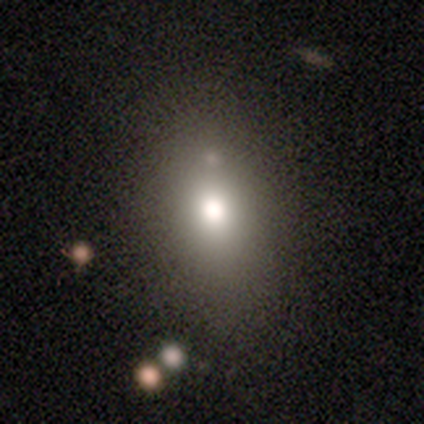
Smooth or featured: smooth — 40% (tied with featured or disk — 40%)
How rounded: in between — 100%
Merging: none — 75% (minor disturbance — 25%)